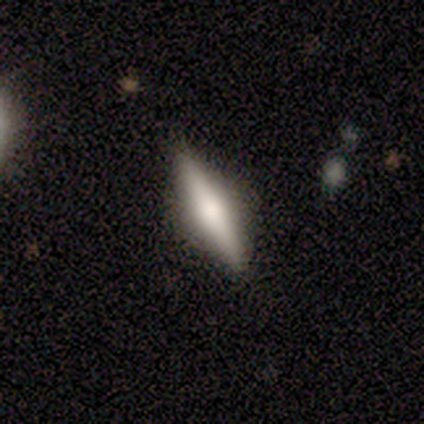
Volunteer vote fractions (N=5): Volunteers were most divided on "smooth or featured": featured or disk: 60%, smooth: 40%, star or artifact: 0%. More confident: edge-on disk — yes (100%); merging — none (80%); edge-on bulge — rounded (67%).